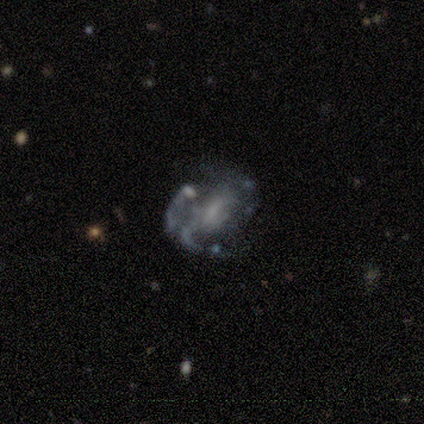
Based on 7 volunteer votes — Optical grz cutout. It shows a featured or disk galaxy (100%) with a weak bar (43%, tied with no), 2 (50%) loose (50%) spiral arms (86%) and a moderate central bulge (29%, tied with small and none). Merging: none (71%).